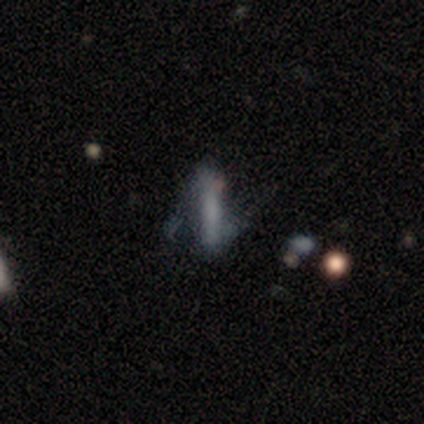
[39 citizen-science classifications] Smooth or featured: featured or disk — 49% (smooth — 36%)
Edge-on disk: yes — 58% (no — 42%)
Edge-on bulge: none — 91% (rounded — 9%)
Merging: major disturbance — 42% (minor disturbance — 33%)